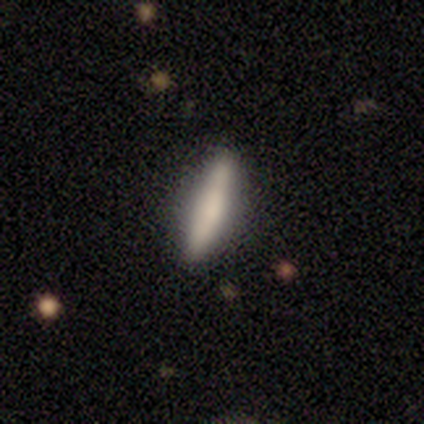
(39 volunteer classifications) Smooth or featured? smooth (72%)
How rounded? cigar-shaped (93%)
Merging? none (84%)